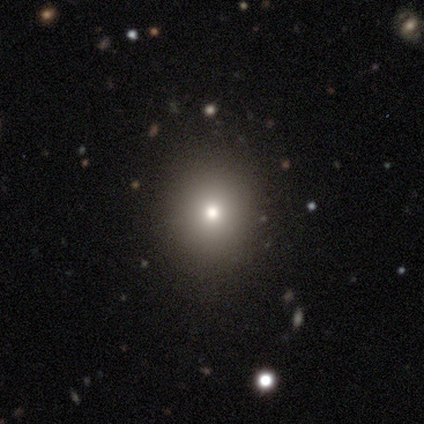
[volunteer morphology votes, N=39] Smooth or featured? smooth (72%)
How rounded? round (64%)
Merging? none (90%)